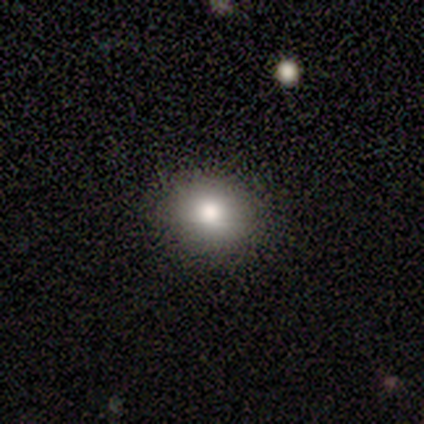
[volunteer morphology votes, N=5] This is likely a smooth galaxy (60%). How rounded: likely round (67%). Merging: clearly none (100%).